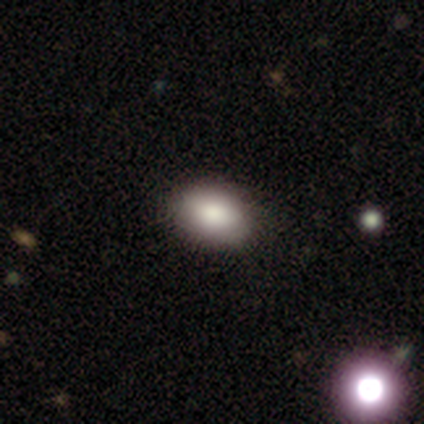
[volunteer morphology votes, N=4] Smooth or featured?
  - smooth: 100% *
  - featured or disk: 0%
  - star or artifact: 0%
How rounded?
  - in between: 100% *
  - round: 0%
  - cigar-shaped: 0%
Merging?
  - none: 100% *
  - minor disturbance: 0%
  - major disturbance: 0%
  - merger: 0%